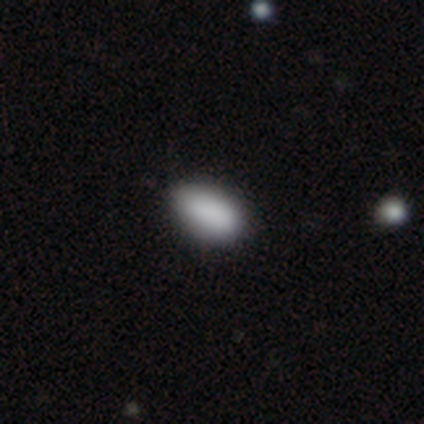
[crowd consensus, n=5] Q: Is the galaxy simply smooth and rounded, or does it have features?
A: smooth — 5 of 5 (100%).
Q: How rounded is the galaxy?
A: in between — 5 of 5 (100%).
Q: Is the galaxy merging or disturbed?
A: none — 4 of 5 (80%).